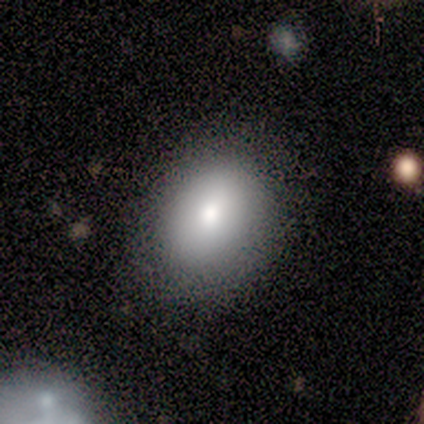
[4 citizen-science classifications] A smooth galaxy with no disk features (75%) that is round (67%).

Vote fractions:
- Smooth or featured? smooth: 75% / featured or disk: 25% / star or artifact: 0%
- How rounded? round: 67% / in between: 33% / cigar-shaped: 0%
- Merging? none: 100% / minor disturbance: 0% / major disturbance: 0% / merger: 0%